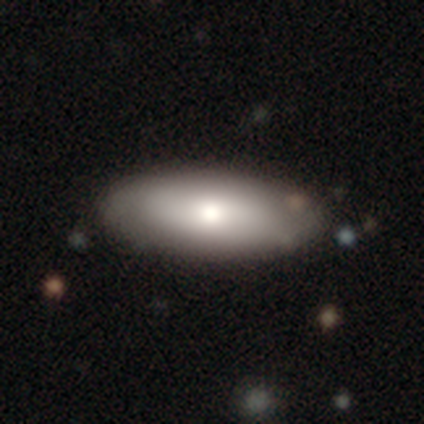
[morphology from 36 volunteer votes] Volunteers were most divided on "smooth or featured": smooth: 78%, featured or disk: 19%, star or artifact: 3%. More confident: how rounded — in between (82%); merging — none (71%).